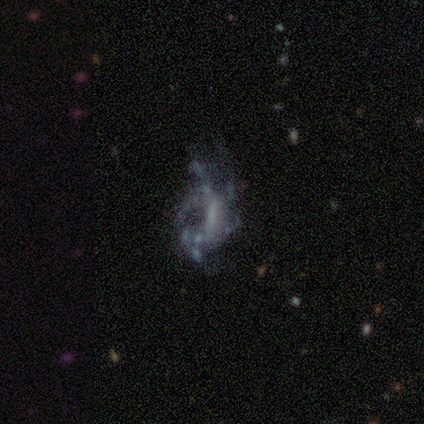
Q: Smooth or featured?
A: featured or disk (60%); runner-up: smooth (40%)
Q: Edge-on disk?
A: no (100%)
Q: Bar?
A: no (67%); runner-up: weak (33%)
Q: Spiral arms?
A: yes (67%); runner-up: no (33%)
Q: Spiral winding?
A: medium (50%); tied with: loose (50%)
Q: Spiral arm count?
A: more than 4 (50%); tied with: can't tell (50%)
Q: Bulge size?
A: none (100%)
Q: Merging?
A: none (40%); tied with: major disturbance (40%)